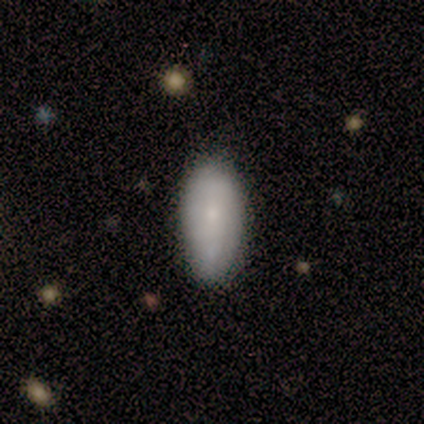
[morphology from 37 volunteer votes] Smooth or featured?
  - smooth: 57% *
  - featured or disk: 38%
  - star or artifact: 5%
How rounded?
  - in between: 90% *
  - round: 5%
  - cigar-shaped: 5%
Merging?
  - none: 66% *
  - merger: 11%
  - minor disturbance: 9%
  - major disturbance: 0%